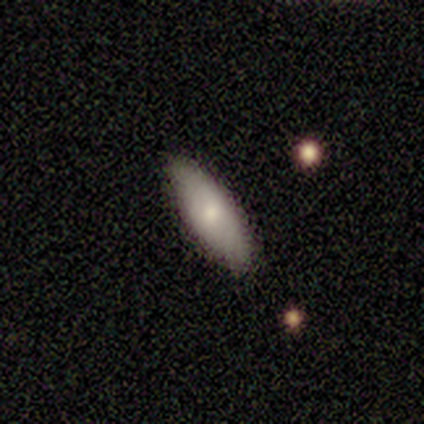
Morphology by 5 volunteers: Smooth or featured? 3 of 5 (60%) said smooth. How rounded? 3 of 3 (100%) said in between. Merging? 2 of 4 (50%) said none.